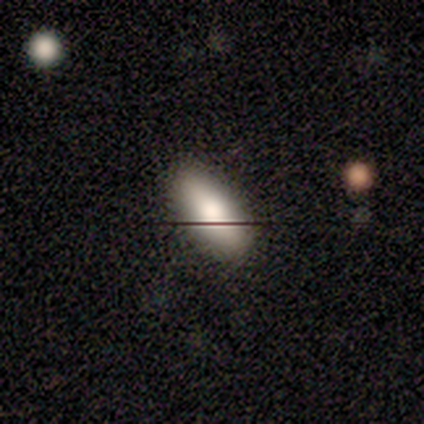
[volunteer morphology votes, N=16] type=smooth (81%); roundness=in between (69%); merging=none (93%).